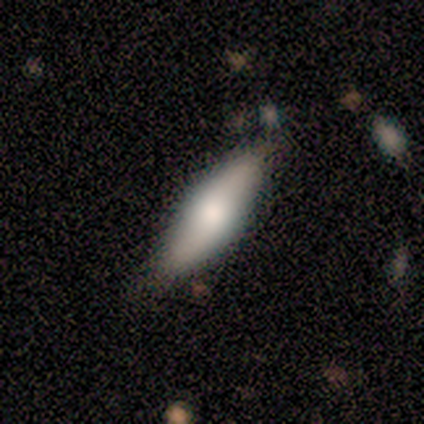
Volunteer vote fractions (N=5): Volunteers were most divided on "how rounded": cigar-shaped: 60%, in between: 40%, round: 0%. More confident: smooth or featured — smooth (100%); merging — none (60%).